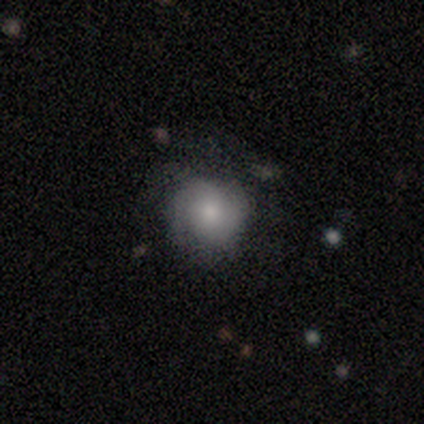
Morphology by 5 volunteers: This appears to be a smooth galaxy with no disk features (60%) that is round (100%). Merging: none (80%).